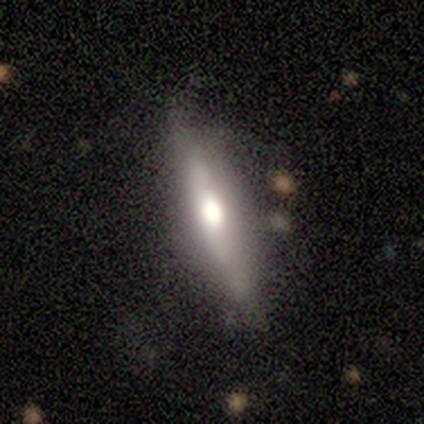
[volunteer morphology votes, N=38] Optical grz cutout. It shows a featured or disk galaxy (58%) viewed edge-on (91%) with a rounded central bulge (80%). Merging: none (68%).